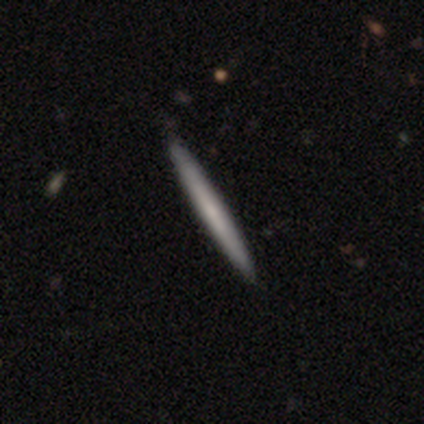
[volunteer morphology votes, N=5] A smooth galaxy with no disk features (60%) that is cigar-shaped (100%).

Vote fractions:
- Smooth or featured? smooth: 60% / featured or disk: 40% / star or artifact: 0%
- How rounded? cigar-shaped: 100% / round: 0% / in between: 0%
- Merging? none: 80% / minor disturbance: 20% / major disturbance: 0% / merger: 0%